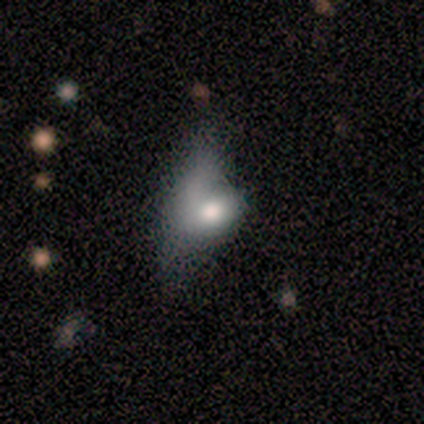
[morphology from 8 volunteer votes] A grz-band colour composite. It shows a smooth galaxy with no disk features (62%) that is in between round and cigar-shaped (60%). Merging: major disturbance (50%).